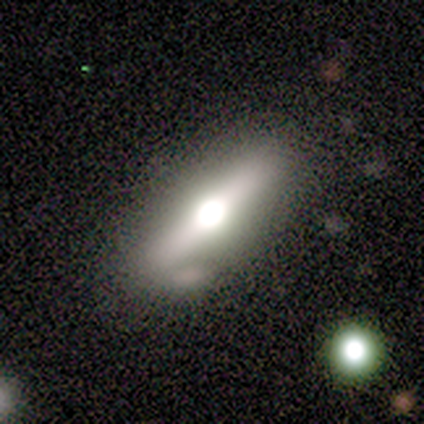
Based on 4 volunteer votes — smooth-or-featured: featured or disk: 75% | smooth: 25% | star or artifact: 0%
  disk-edge-on: yes: 100% | no: 0%
    edge-on-bulge: rounded: 100% | boxy: 0% | none: 0%
  merging: none: 75% | minor disturbance: 25% | major disturbance: 0% | merger: 0%